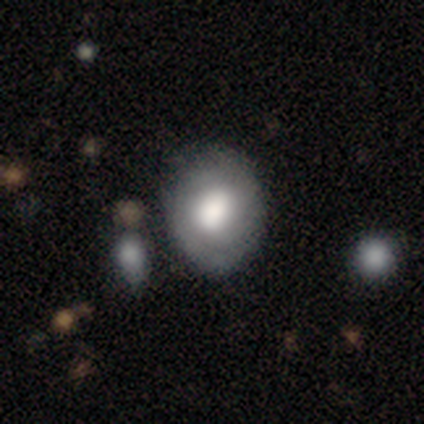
Volunteers were most divided on "bar" (3-way tie): strong: 33%, weak: 33%, no: 33%. More confident: edge-on disk — no (100%); spiral arms — no (67%); bulge size — moderate (67%); smooth or featured — featured or disk (60%); merging — minor disturbance (60%).